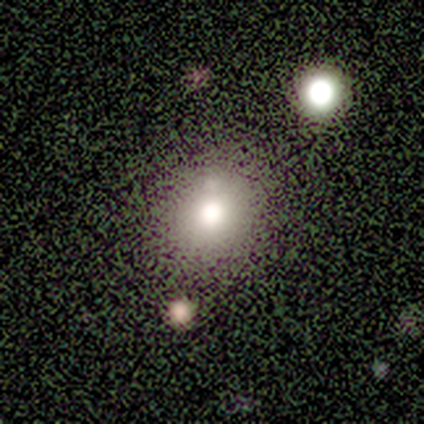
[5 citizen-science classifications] Smooth or featured? smooth (80%)
How rounded? round (100%)
Merging? none (75%)